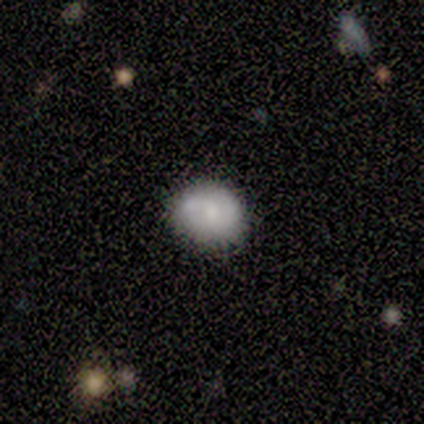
Overall: smooth (67%; featured or disk 28%). How rounded: round (83%). Merging: none (59%; minor disturbance 29%).